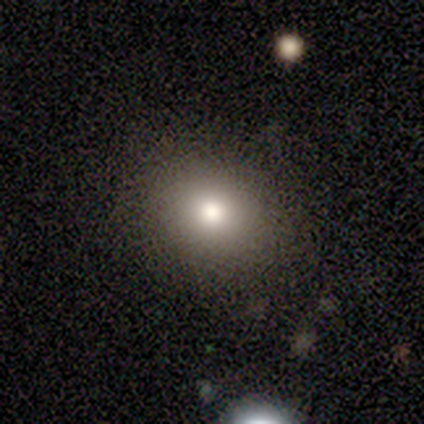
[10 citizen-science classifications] Smooth or featured?
  - smooth: 90% *
  - featured or disk: 10%
  - star or artifact: 0%
How rounded?
  - round: 56% *
  - in between: 44%
  - cigar-shaped: 0%
Merging?
  - none: 70% *
  - minor disturbance: 20%
  - major disturbance: 10%
  - merger: 0%